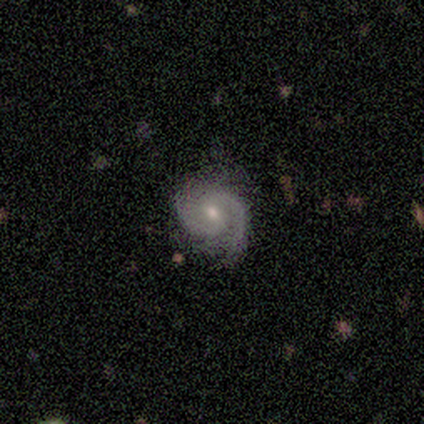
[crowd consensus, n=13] Smooth or featured?
  - featured or disk: 69% *
  - smooth: 31%
  - star or artifact: 0%
Edge-on disk?
  - no: 100% *
  - yes: 0%
Bar?
  - no: 67% *
  - weak: 33%
  - strong: 0%
Spiral arms?
  - yes: 100% *
  - no: 0%
Spiral winding?
  - tight: 44% * (tied)
  - medium: 44% * (tied)
  - loose: 11%
Spiral arm count?
  - 2: 78% *
  - 3: 11%
  - can't tell: 11%
  - 1: 0%
  - 4: 0%
  - more than 4: 0%
Bulge size?
  - moderate: 78% *
  - small: 22%
  - dominant: 0%
  - large: 0%
  - none: 0%
Merging?
  - none: 77% *
  - minor disturbance: 23%
  - major disturbance: 0%
  - merger: 0%